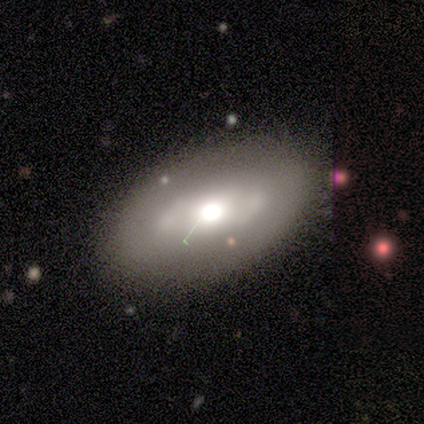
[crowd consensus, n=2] smooth-or-featured: featured or disk: 100% | smooth: 0% | star or artifact: 0%
  disk-edge-on: no: 100% | yes: 0%
    bar: no: 100% | strong: 0% | weak: 0%
    has-spiral-arms: no: 100% | yes: 0%
    bulge-size: moderate: 100% | dominant: 0% | large: 0% | small: 0% | none: 0%
  merging: none: 100% | minor disturbance: 0% | major disturbance: 0% | merger: 0%